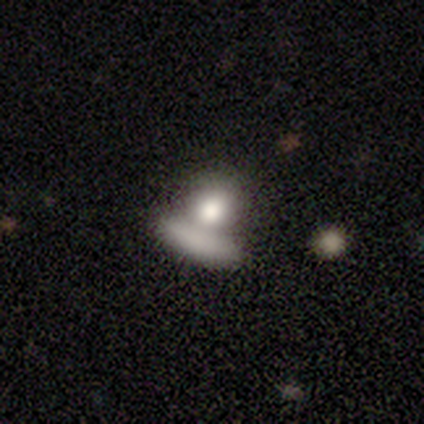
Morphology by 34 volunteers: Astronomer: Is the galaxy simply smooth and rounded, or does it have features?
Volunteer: smooth — 79%.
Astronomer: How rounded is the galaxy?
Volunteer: round — 56% (runner-up: in between, 37%).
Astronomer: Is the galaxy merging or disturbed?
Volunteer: merger — 81%.